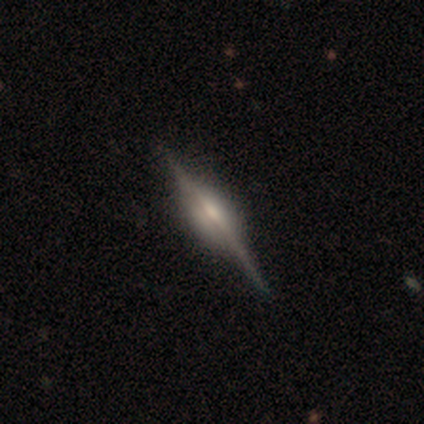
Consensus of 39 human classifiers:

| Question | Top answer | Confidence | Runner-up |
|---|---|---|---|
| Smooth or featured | featured or disk | 97% | smooth (3%) |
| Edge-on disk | yes | 100% | — |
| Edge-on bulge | rounded | 66% | boxy (32%) |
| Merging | none | 64% | major disturbance (3%) |